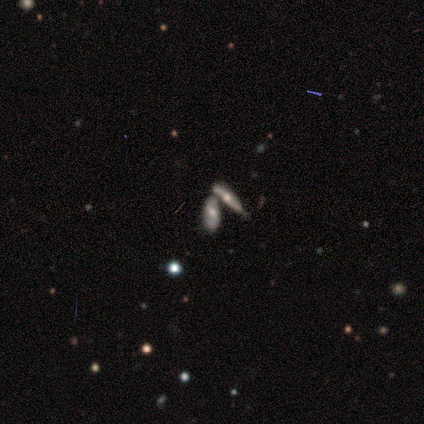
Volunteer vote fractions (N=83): Smooth or featured? featured or disk (48%)
Edge-on disk? no (68%)
Bar? no (44%)
Spiral arms? yes (74%)
Spiral winding? medium (65%)
Spiral arm count? 2 (75%)
Bulge size? moderate (59%)
Merging? merger (69%)